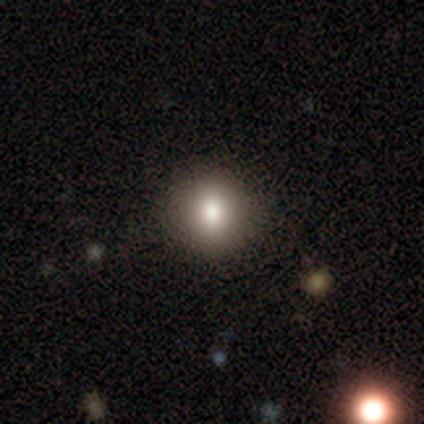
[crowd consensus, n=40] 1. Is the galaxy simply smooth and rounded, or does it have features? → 88% smooth, 8% star or artifact, 5% featured or disk.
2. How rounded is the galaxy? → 91% round, 9% in between, 0% cigar-shaped.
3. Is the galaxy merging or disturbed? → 92% none, 8% minor disturbance, 0% major disturbance, 0% merger.